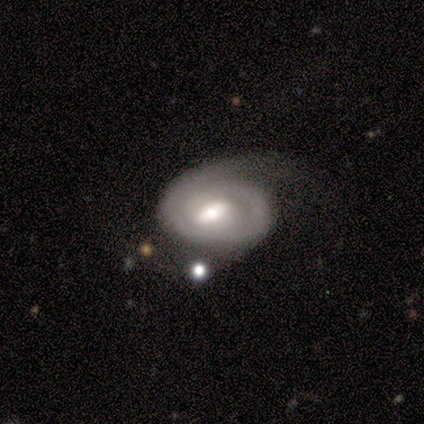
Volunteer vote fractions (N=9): Morphology: type=featured or disk (100%); edge-on=no (100%); bar=strong (44%, tied with weak); spiral arms=yes (89%); winding=tight (75%); arm count=2 (62%); bulge=moderate (44%); merging=minor disturbance (56%).